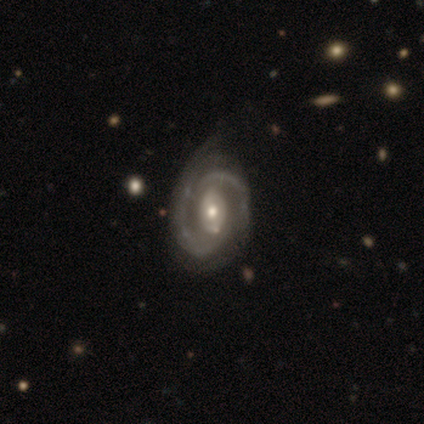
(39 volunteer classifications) Overall: featured or disk (85%). Edge-on disk: no (91%). Bar: no (50%; weak 40%). Spiral arms: yes (100%). Spiral arm count: 2 (73%). Spiral winding: tight (43%, tied with medium). Bulge size: moderate (70%). Merging: none (46%; minor disturbance 38%).